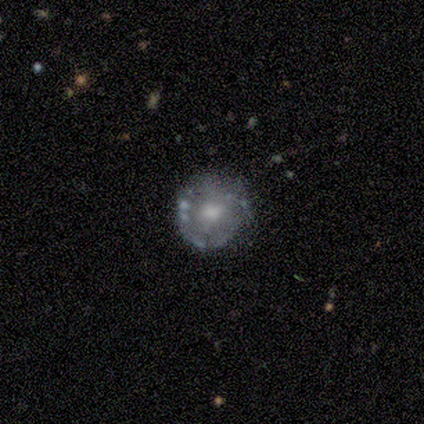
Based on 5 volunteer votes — Overall: featured or disk (60%; smooth 40%). Edge-on disk: no (100%). Bar: no (100%). Spiral arms: no (100%). Bulge size: large (33%, tied with moderate and small). Merging: none (80%).